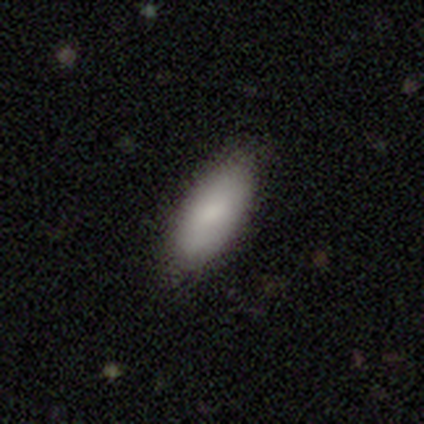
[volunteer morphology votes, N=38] smooth_or_featured: smooth (p=0.89) [alt: featured or disk p=0.05]
how_rounded: in between (p=0.79) [alt: cigar-shaped p=0.21]
merging: none (p=0.89) [alt: minor disturbance p=0.06]